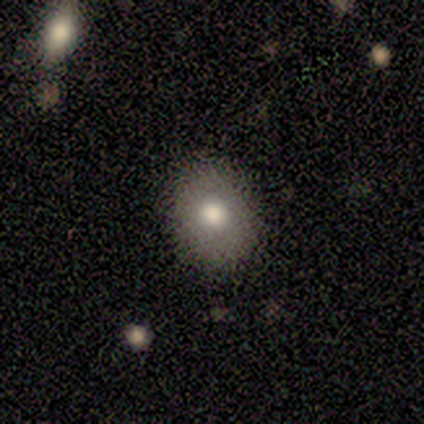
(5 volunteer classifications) smooth 100%, featured or disk 0%, star or artifact 0%. Down the decision tree: how rounded — round (60%); merging — none (80%).